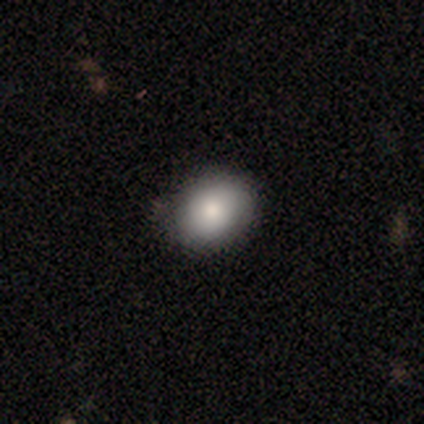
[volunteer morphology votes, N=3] A smooth galaxy with no disk features (100%) that is in between round and cigar-shaped (67%).

Vote fractions:
- Smooth or featured? smooth: 100% / featured or disk: 0% / star or artifact: 0%
- How rounded? in between: 67% / round: 33% / cigar-shaped: 0%
- Merging? none: 100% / minor disturbance: 0% / major disturbance: 0% / merger: 0%